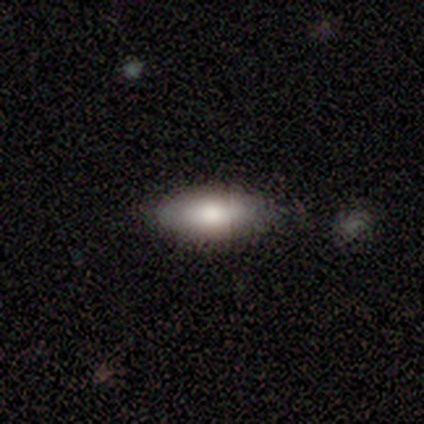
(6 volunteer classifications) smooth-or-featured: smooth: 83% | featured or disk: 17% | star or artifact: 0%
  how-rounded: in between: 80% | cigar-shaped: 20% | round: 0%
  merging: none: 83% | merger: 17% | minor disturbance: 0% | major disturbance: 0%